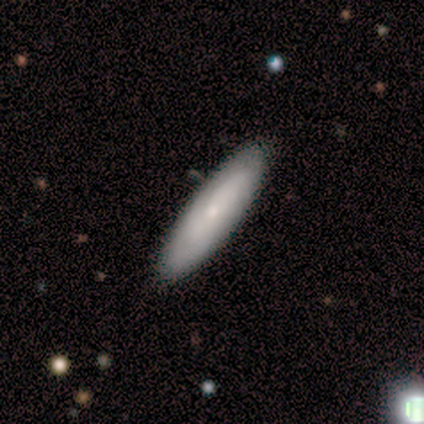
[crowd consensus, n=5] Smooth or featured?
  - smooth: 60% *
  - featured or disk: 40%
  - star or artifact: 0%
How rounded?
  - cigar-shaped: 67% *
  - in between: 33%
  - round: 0%
Merging?
  - none: 100% *
  - minor disturbance: 0%
  - major disturbance: 0%
  - merger: 0%